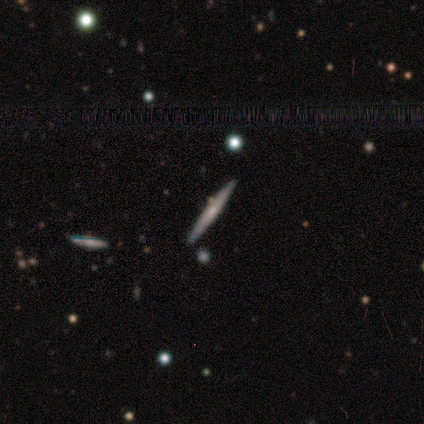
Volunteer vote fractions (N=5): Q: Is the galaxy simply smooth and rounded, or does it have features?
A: featured or disk — 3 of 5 (60%).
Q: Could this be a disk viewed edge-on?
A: yes — 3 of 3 (100%).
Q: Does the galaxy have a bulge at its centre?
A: none — 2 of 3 (67%).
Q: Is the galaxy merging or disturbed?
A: none — 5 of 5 (100%).